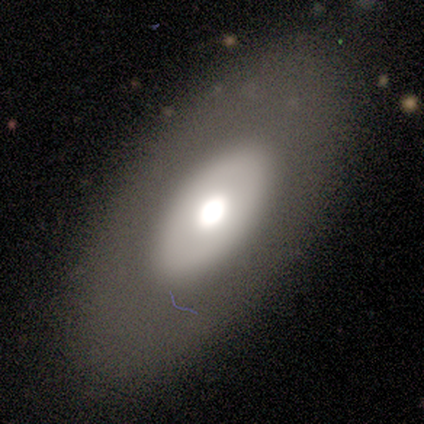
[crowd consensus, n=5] Smooth or featured: smooth — 80% (featured or disk — 20%)
How rounded: in between — 100%
Merging: none — 100%